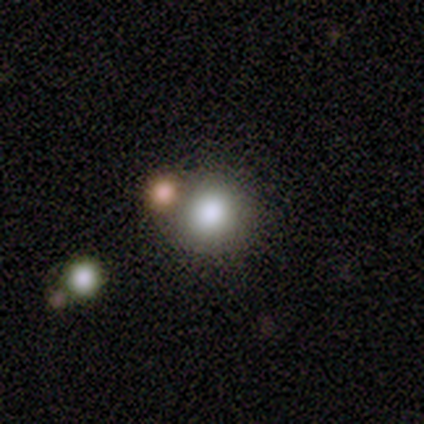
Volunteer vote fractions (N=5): A smooth galaxy with no disk features (80%) that is round (100%). Merging: none (75%).